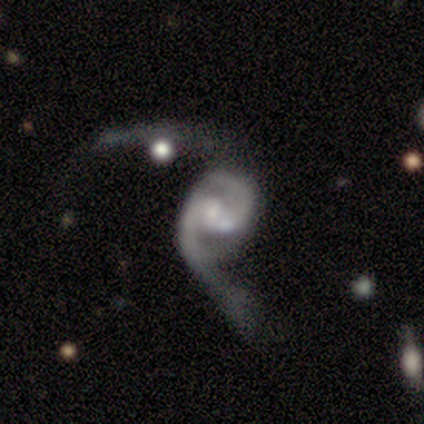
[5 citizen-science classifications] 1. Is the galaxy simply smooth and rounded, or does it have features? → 100% featured or disk, 0% smooth, 0% star or artifact.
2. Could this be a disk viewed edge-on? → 100% no, 0% yes.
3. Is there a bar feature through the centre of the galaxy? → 60% no, 40% weak, 0% strong.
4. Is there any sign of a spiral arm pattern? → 100% yes, 0% no.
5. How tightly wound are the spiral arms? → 60% medium, 40% loose, 0% tight.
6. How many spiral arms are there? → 100% 2, 0% 1, 0% 3, 0% 4, 0% more than 4, 0% can't tell.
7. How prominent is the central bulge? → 40% small, 20% large, 20% moderate, 20% none, 0% dominant.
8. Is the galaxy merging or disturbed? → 60% major disturbance, 20% none, 20% merger, 0% minor disturbance.